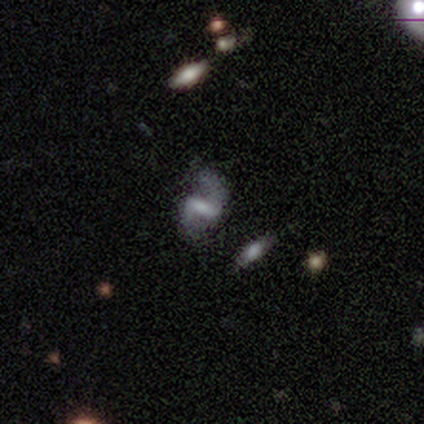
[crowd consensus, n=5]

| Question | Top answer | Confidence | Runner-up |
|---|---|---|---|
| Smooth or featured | featured or disk | 100% | — |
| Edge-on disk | no | 100% | — |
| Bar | strong | 40% | tied: weak (40%) |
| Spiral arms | yes | 100% | — |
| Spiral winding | loose | 80% | tight (20%) |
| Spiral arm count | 2 | 100% | — |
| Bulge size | moderate | 80% | small (20%) |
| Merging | none | 100% | — |